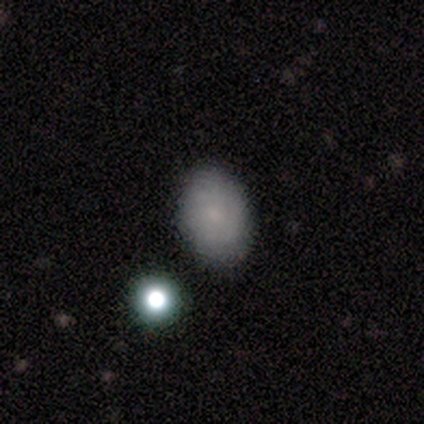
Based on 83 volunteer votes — Morphology: type=smooth (75%); roundness=in between (76%); merging=none (88%).